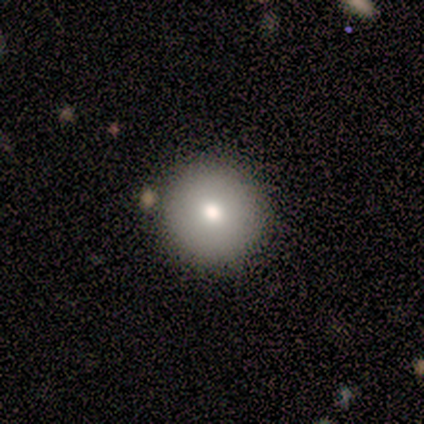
A smooth galaxy with no disk features (80%) that is round (100%).

Vote fractions:
- Smooth or featured? smooth: 80% / star or artifact: 20% / featured or disk: 0%
- How rounded? round: 100% / in between: 0% / cigar-shaped: 0%
- Merging? none: 100% / minor disturbance: 0% / major disturbance: 0% / merger: 0%